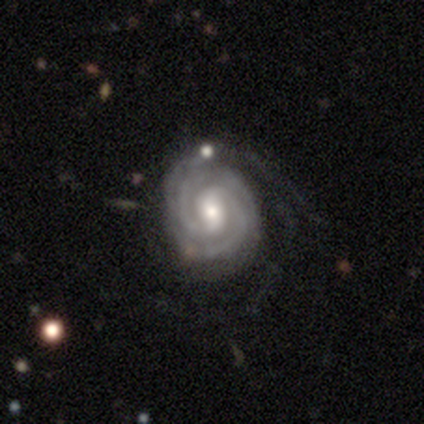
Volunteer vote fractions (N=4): Q: Smooth or featured?
A: featured or disk (75%); runner-up: star or artifact (25%)
Q: Edge-on disk?
A: no (100%)
Q: Bar?
A: no (67%); runner-up: weak (33%)
Q: Spiral arms?
A: yes (100%)
Q: Spiral winding?
A: tight (67%); runner-up: loose (33%)
Q: Spiral arm count?
A: 2 (100%)
Q: Bulge size?
A: moderate (67%); runner-up: small (33%)
Q: Merging?
A: none (67%); runner-up: minor disturbance (33%)